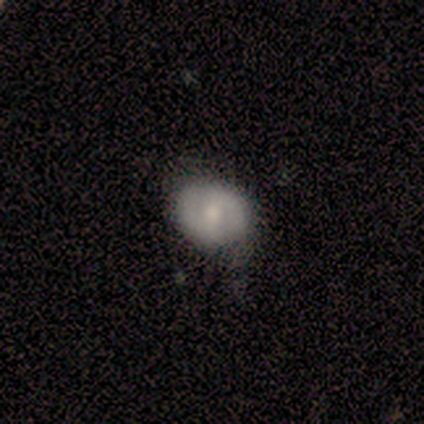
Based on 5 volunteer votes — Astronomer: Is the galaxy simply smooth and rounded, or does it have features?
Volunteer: smooth — 60% (runner-up: featured or disk, 40%).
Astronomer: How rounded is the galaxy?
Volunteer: round — 100%.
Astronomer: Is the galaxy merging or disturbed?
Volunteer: minor disturbance — 60%.